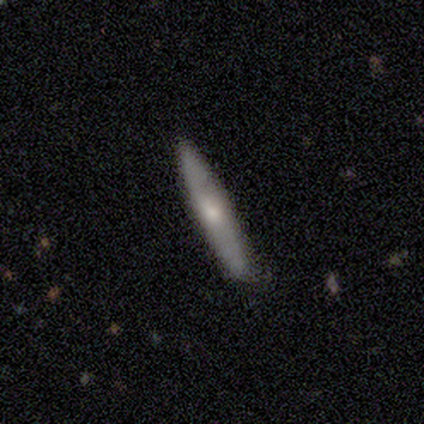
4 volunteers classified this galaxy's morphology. Smooth or featured? smooth (50%, tied with featured or disk)
How rounded? cigar-shaped (100%)
Merging? minor disturbance (75%)